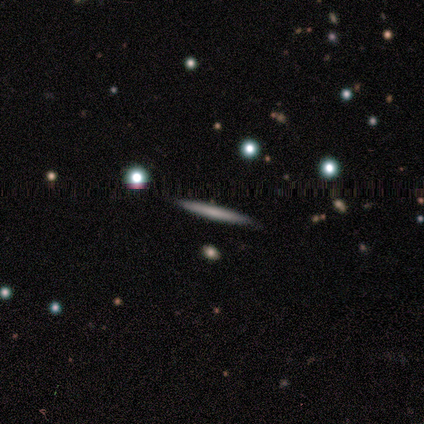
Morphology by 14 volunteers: Smooth or featured: smooth — 57% (featured or disk — 43%)
How rounded: cigar-shaped — 100%
Merging: none — 100%